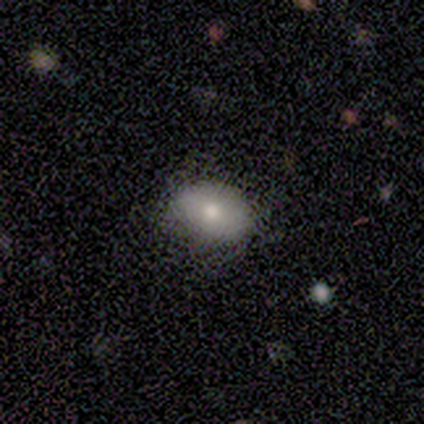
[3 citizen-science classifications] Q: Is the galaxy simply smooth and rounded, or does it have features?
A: smooth — 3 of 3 (100%).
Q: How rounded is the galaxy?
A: in between — 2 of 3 (67%).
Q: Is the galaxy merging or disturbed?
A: none — 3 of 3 (100%).